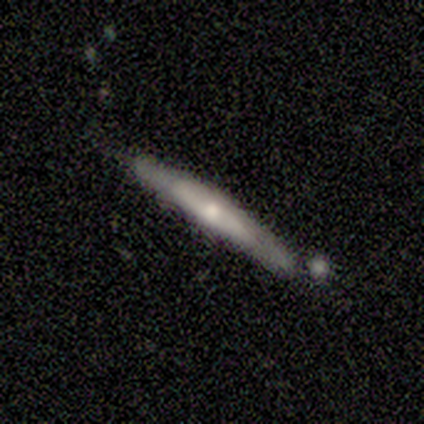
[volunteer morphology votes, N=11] Smooth or featured?
  - smooth: 45% * (tied)
  - featured or disk: 45% * (tied)
  - star or artifact: 9%
How rounded?
  - cigar-shaped: 80% *
  - in between: 20%
  - round: 0%
Merging?
  - none: 70% *
  - minor disturbance: 20%
  - merger: 10%
  - major disturbance: 0%